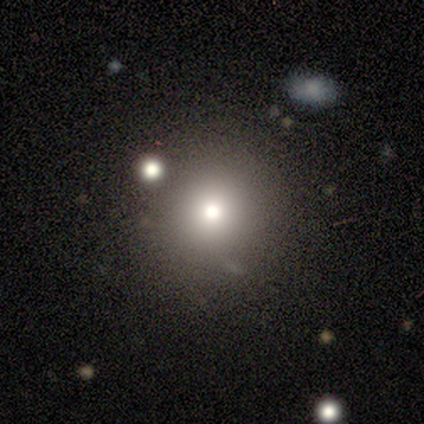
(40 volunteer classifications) Volunteers were most divided on "merging": none: 50%, merger: 19%, minor disturbance: 3%, major disturbance: 3%. More confident: how rounded — round (97%); smooth or featured — smooth (72%).